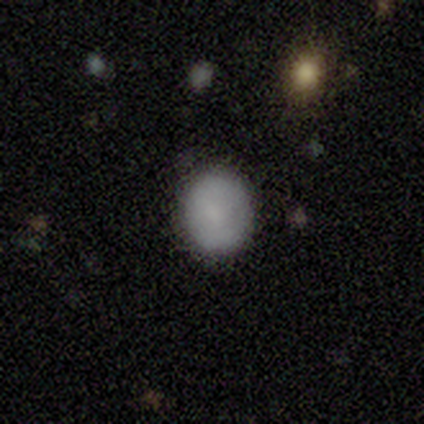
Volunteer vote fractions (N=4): A smooth galaxy with no disk features (75%) that is round (67%). Merging: none (100%).